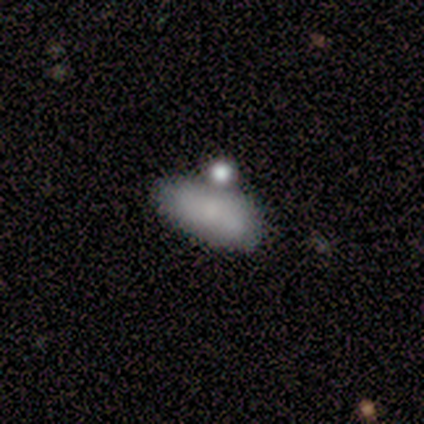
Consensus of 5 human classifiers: A smooth galaxy with no disk features (60%) that is in between round and cigar-shaped (67%). Merging: merger (60%).